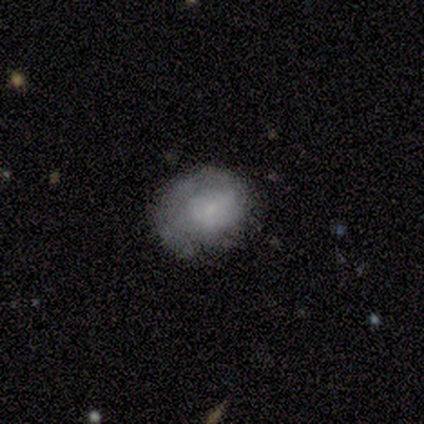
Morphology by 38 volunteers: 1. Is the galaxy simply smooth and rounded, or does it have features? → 53% smooth, 42% featured or disk, 5% star or artifact.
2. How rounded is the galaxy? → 70% round, 30% in between, 0% cigar-shaped.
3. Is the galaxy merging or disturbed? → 56% none, 28% minor disturbance, 14% major disturbance, 3% merger.